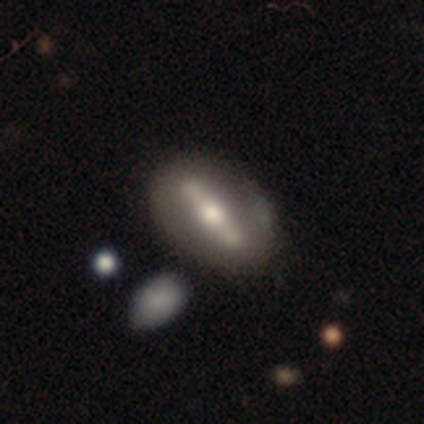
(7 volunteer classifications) Smooth or featured? 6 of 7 (86%) said featured or disk. Edge-on disk? 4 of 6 (67%) said no. Bar? 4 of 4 (100%) said strong. Spiral arms? 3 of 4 (75%) said no. Bulge size? 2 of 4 (50%, tied with moderate) said large. Merging? 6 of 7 (86%) said none.